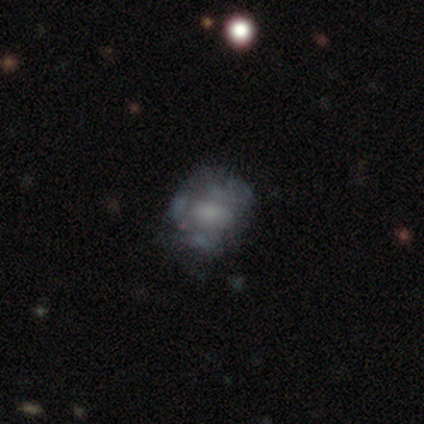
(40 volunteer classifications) This is marginally a featured or disk galaxy (42%). It is clearly not viewed edge-on (100%). Bar: likely no (65%). Spiral arm pattern: clearly no (82%). Central bulge: marginally small (29%, tied with none). Merging: possibly none (48%).